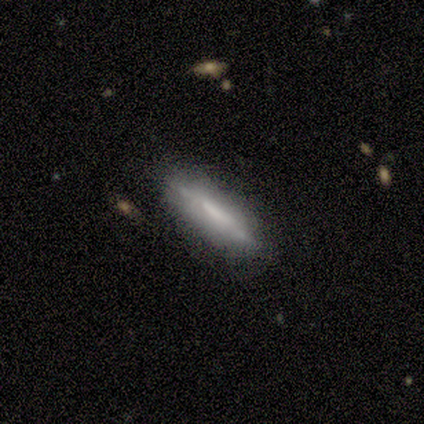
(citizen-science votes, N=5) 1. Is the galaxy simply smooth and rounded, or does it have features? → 80% featured or disk, 20% smooth, 0% star or artifact.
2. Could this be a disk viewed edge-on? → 100% yes, 0% no.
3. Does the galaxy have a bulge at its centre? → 75% none, 25% boxy, 0% rounded.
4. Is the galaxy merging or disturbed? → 100% none, 0% minor disturbance, 0% major disturbance, 0% merger.